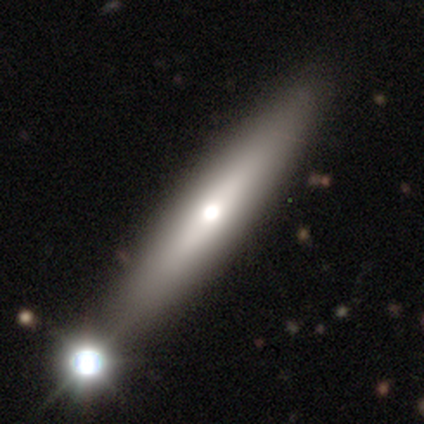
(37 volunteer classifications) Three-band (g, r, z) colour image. It shows a smooth galaxy with no disk features (70%) that is cigar-shaped (88%). Merging: none (23%).